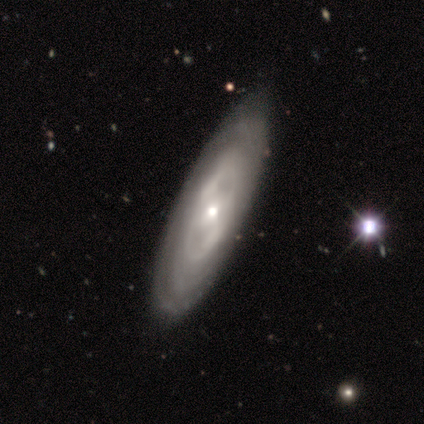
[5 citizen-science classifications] smooth_or_featured: featured or disk (p=0.80) [alt: smooth p=0.20]
disk_edge_on: no (p=1.00)
bar: no (p=0.50) [alt: strong p=0.25]
has_spiral_arms: yes (p=0.75) [alt: no p=0.25]
spiral_winding: tight (p=0.67) [alt: medium p=0.33]
spiral_arm_count: can't tell (p=1.00)
bulge_size: moderate (p=0.50) [tied with: small p=0.50]
merging: minor disturbance (p=0.80) [alt: none p=0.20]